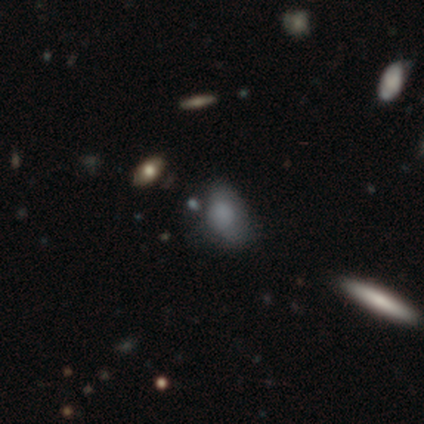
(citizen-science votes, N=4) Q: Smooth or featured?
A: smooth (50%); runner-up: featured or disk (25%)
Q: How rounded?
A: in between (100%)
Q: Merging?
A: none (100%)